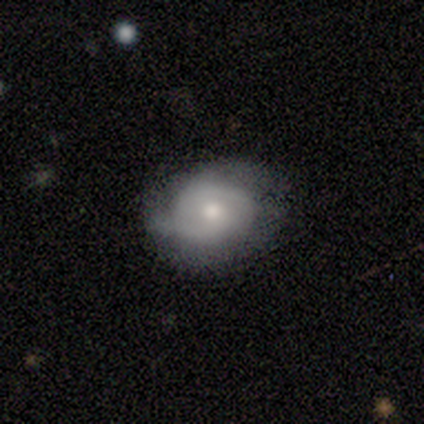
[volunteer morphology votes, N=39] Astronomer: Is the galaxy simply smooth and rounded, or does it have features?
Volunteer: featured or disk — 67%.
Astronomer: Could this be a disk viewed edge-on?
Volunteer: no — 92%.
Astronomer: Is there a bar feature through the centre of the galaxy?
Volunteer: no — 71%.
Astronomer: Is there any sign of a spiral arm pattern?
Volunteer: yes — 83%.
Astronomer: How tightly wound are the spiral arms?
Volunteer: tight — 55%.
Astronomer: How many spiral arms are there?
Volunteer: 2 — 65%.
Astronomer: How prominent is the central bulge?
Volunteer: moderate — 50% (runner-up: small, 46%).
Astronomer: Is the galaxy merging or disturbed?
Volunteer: none — 56%.